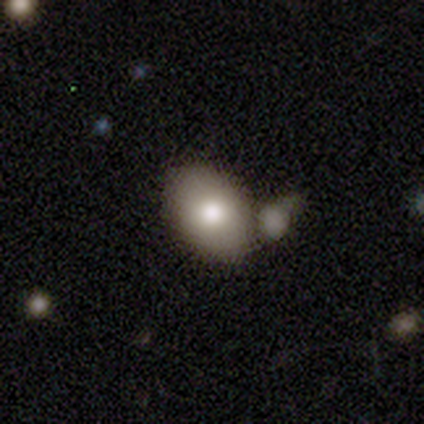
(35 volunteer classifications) Overall: smooth (74%). How rounded: in between (69%; round 31%). Merging: none (52%; merger 29%).